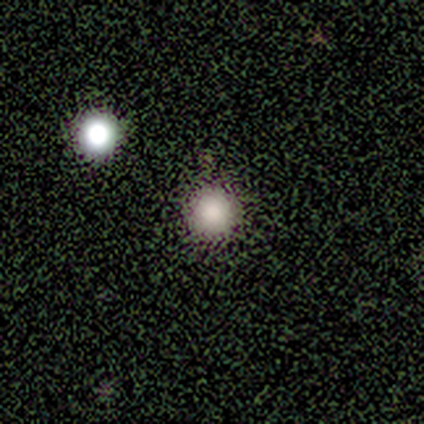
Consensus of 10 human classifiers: smooth 70%, star or artifact 30%, featured or disk 0%. Down the decision tree: how rounded — round (100%); merging — none (86%).